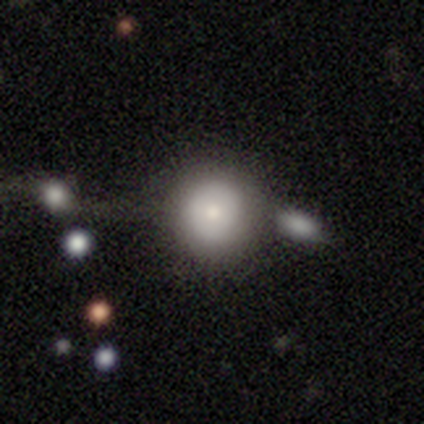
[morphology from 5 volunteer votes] Overall: smooth (60%; star or artifact 40%). How rounded: round (100%). Merging: merger (100%).